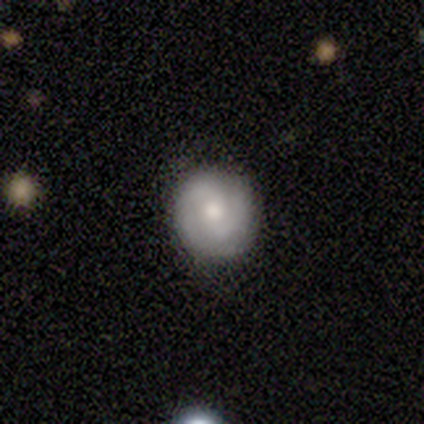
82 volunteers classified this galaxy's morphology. Smooth or featured? featured or disk (59%)
Edge-on disk? no (96%)
Bar? no (54%)
Spiral arms? yes (87%)
Spiral winding? tight (52%)
Spiral arm count? 2 (75%)
Bulge size? moderate (67%)
Merging? none (62%)